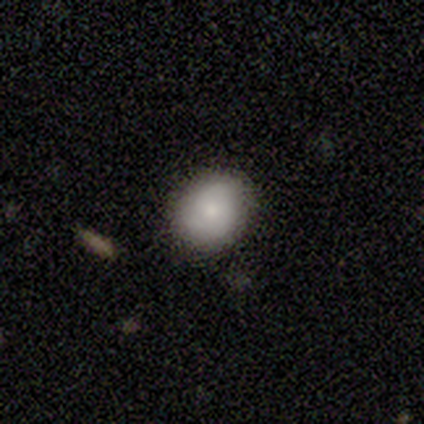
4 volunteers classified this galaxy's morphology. Volunteers were most divided on "merging": none: 50%, minor disturbance: 25%, major disturbance: 25%, merger: 0%. More confident: smooth or featured — smooth (100%); how rounded — in between (75%).